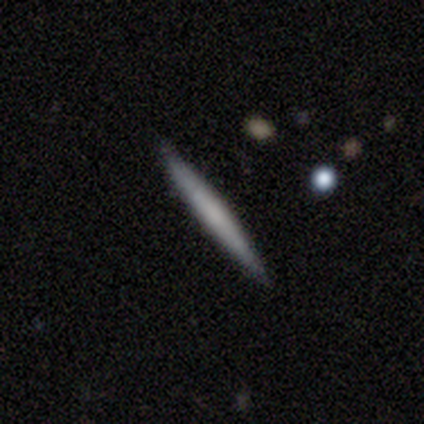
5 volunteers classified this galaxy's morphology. smooth 80%, star or artifact 20%, featured or disk 0%. Down the decision tree: how rounded — cigar-shaped (100%); merging — none (100%).